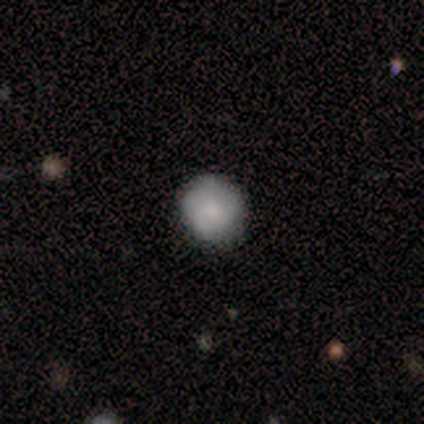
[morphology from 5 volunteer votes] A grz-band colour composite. It shows a smooth galaxy with no disk features (60%) that is round (100%). Merging: none (50%, tied with minor disturbance).